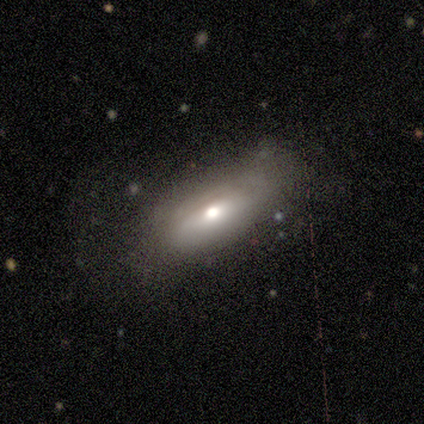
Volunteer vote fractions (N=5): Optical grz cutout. It shows a smooth galaxy with no disk features (60%) that is in between round and cigar-shaped (67%). Merging: none (80%).